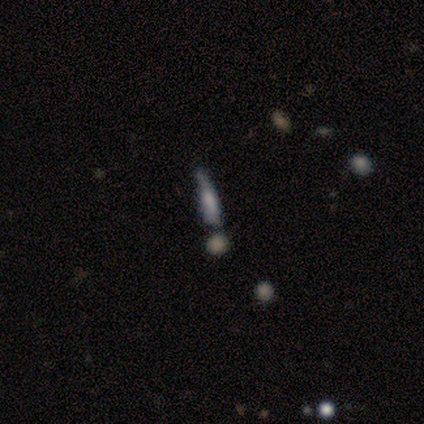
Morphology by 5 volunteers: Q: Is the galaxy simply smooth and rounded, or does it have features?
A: smooth — 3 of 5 (60%).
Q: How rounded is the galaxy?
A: cigar-shaped — 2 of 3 (67%).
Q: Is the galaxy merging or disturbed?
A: none — 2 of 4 (50%).